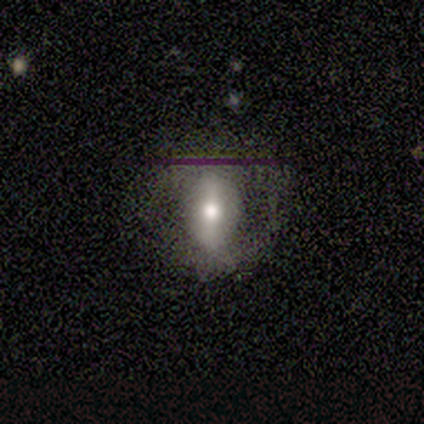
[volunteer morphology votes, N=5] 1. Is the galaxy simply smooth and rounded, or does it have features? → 100% smooth, 0% featured or disk, 0% star or artifact.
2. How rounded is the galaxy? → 80% in between, 20% round, 0% cigar-shaped.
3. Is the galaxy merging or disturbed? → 100% none, 0% minor disturbance, 0% major disturbance, 0% merger.